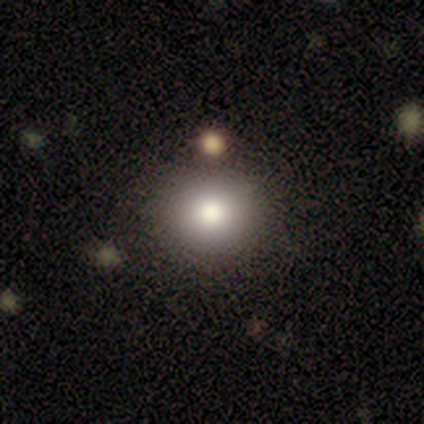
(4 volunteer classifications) Volunteers were most divided on "merging": merger: 50%, none: 25%, minor disturbance: 25%, major disturbance: 0%. More confident: how rounded — round (100%); smooth or featured — smooth (75%).